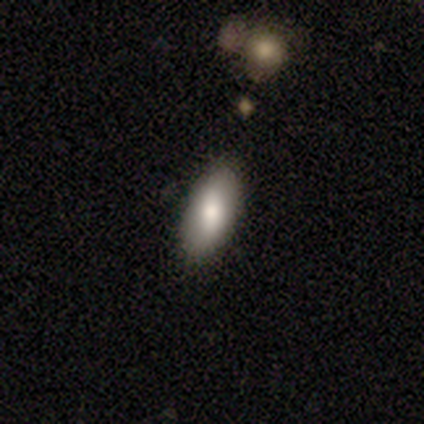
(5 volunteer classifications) Overall: smooth (60%; featured or disk 40%). How rounded: in between (67%; cigar-shaped 33%). Merging: none (60%; minor disturbance 40%).